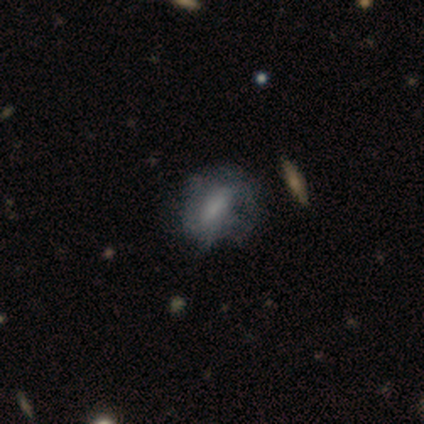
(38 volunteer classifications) smooth-or-featured: smooth: 61% | featured or disk: 34% | star or artifact: 5%
  how-rounded: in between: 70% | cigar-shaped: 17% | round: 13%
  merging: none: 50% | minor disturbance: 28% | major disturbance: 22% | merger: 0%